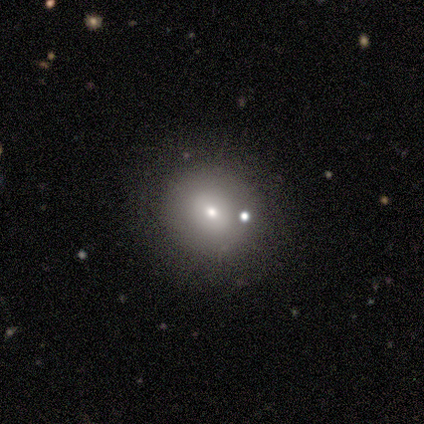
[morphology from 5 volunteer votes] This appears to be a smooth galaxy with no disk features (40%, tied with featured or disk) that is round (50%, tied with in between). Merging: none (75%).